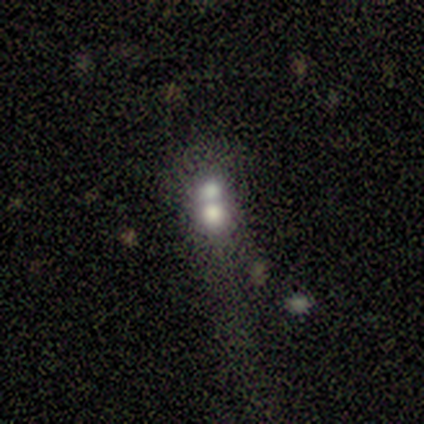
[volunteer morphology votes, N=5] A smooth galaxy with no disk features (60%) that is round (67%).

Vote fractions:
- Smooth or featured? smooth: 60% / featured or disk: 20% / star or artifact: 20%
- How rounded? round: 67% / in between: 33% / cigar-shaped: 0%
- Merging? none: 25% (tied) / minor disturbance: 25% (tied) / major disturbance: 25% (tied) / merger: 25% (tied)